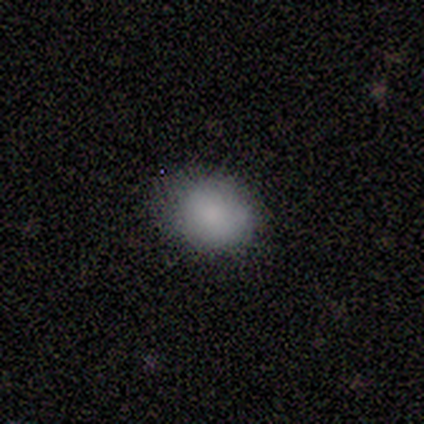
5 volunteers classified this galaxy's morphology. type=smooth (100%); roundness=round (60%); merging=none (80%).